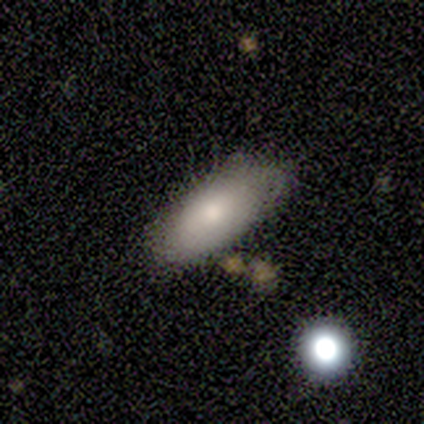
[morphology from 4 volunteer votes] A smooth galaxy with no disk features (100%) that is in between round and cigar-shaped (100%). Merging: none (75%).